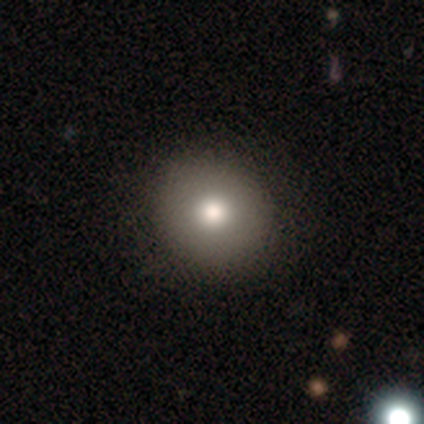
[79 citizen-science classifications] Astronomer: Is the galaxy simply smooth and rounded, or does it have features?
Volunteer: smooth — 82%.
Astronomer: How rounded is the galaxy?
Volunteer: round — 94%.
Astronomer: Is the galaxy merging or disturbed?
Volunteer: none — 45%.